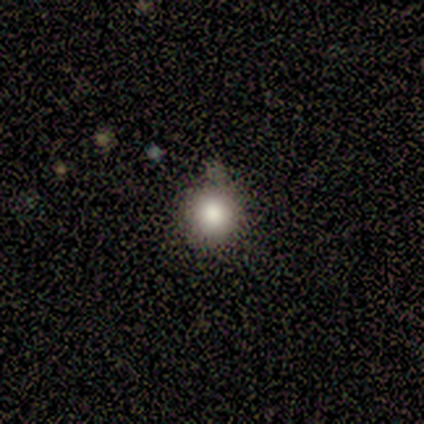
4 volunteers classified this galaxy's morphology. Overall: smooth (75%). How rounded: round (67%; cigar-shaped 33%). Merging: none (100%).